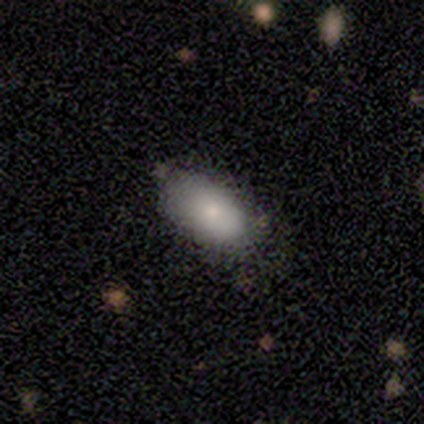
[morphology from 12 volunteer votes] smooth 100%, featured or disk 0%, star or artifact 0%. Down the decision tree: how rounded — in between (83%); merging — none (75%).